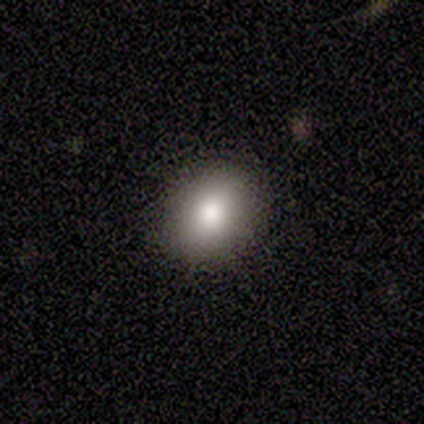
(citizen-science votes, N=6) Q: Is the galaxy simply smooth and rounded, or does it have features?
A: smooth — 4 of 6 (67%).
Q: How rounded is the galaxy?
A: round — 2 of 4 (50%, tied with in between).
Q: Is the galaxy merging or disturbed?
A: none — 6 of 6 (100%).